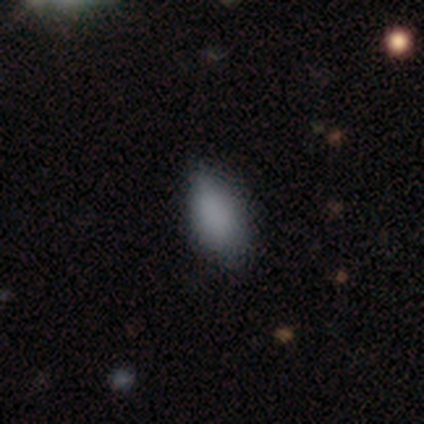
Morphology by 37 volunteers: smooth 84%, featured or disk 8%, star or artifact 8%. Down the decision tree: how rounded — in between (84%); merging — none (56%).